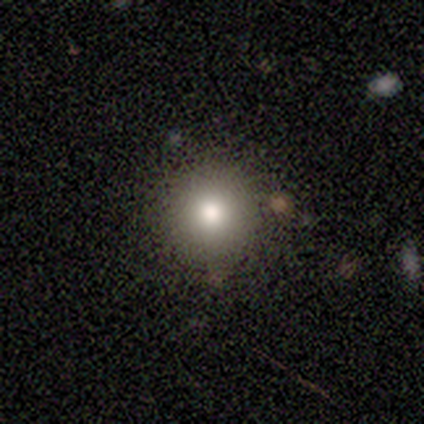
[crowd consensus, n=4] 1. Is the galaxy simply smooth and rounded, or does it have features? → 100% smooth, 0% featured or disk, 0% star or artifact.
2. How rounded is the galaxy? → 100% round, 0% in between, 0% cigar-shaped.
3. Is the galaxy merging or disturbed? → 75% none, 25% major disturbance, 0% minor disturbance, 0% merger.